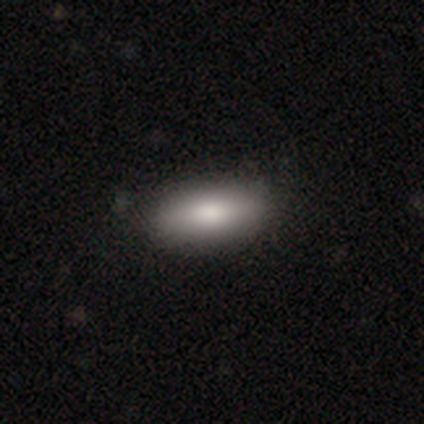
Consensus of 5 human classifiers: Smooth or featured? 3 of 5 (60%) said smooth. How rounded? 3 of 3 (100%) said in between. Merging? 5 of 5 (100%) said none.